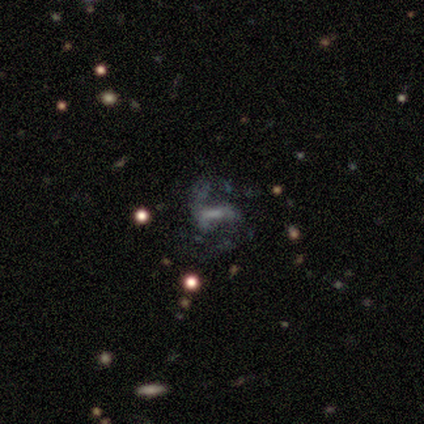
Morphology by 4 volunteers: Smooth or featured?
  - featured or disk: 50% *
  - smooth: 25%
  - star or artifact: 25%
Edge-on disk?
  - no: 100% *
  - yes: 0%
Bar?
  - weak: 50% * (tied)
  - no: 50% * (tied)
  - strong: 0%
Spiral arms?
  - yes: 50% * (tied)
  - no: 50% * (tied)
Spiral winding?
  - medium: 100% *
  - tight: 0%
  - loose: 0%
Spiral arm count?
  - can't tell: 100% *
  - 1: 0%
  - 2: 0%
  - 3: 0%
  - 4: 0%
  - more than 4: 0%
Bulge size?
  - moderate: 50% * (tied)
  - small: 50% * (tied)
  - dominant: 0%
  - large: 0%
  - none: 0%
Merging?
  - none: 67% *
  - major disturbance: 33%
  - minor disturbance: 0%
  - merger: 0%